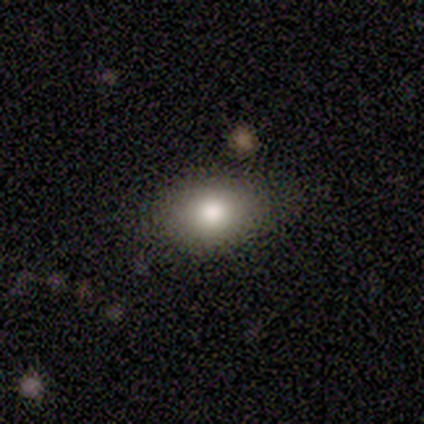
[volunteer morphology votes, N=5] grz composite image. It shows a smooth galaxy with no disk features (100%) that is in between round and cigar-shaped (80%). Merging: none (100%).